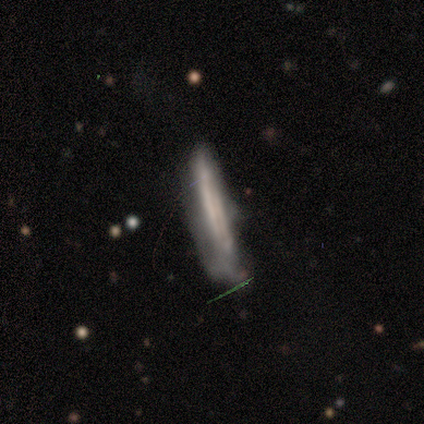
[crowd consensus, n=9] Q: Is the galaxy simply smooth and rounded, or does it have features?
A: featured or disk — 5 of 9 (56%).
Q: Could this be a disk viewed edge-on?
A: yes — 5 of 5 (100%).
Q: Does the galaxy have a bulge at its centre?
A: none — 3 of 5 (60%).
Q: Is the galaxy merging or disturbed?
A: none — 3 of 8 (38%, tied with major disturbance).